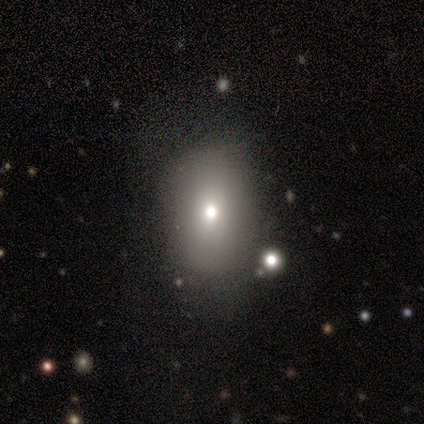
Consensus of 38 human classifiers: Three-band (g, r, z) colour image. It shows a smooth galaxy with no disk features (74%) that is in between round and cigar-shaped (79%). Merging: none (58%).